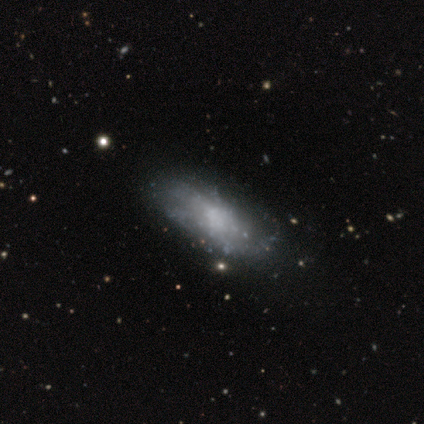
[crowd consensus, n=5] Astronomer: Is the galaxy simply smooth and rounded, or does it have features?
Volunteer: smooth — 60% (runner-up: featured or disk, 40%).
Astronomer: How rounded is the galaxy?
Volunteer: cigar-shaped — 67%.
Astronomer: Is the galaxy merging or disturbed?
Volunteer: none — 60% (runner-up: minor disturbance, 40%).